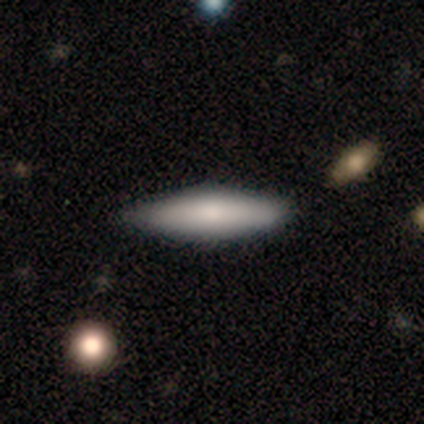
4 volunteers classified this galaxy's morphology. Q: Smooth or featured?
A: smooth (75%); runner-up: star or artifact (25%)
Q: How rounded?
A: in between (67%); runner-up: cigar-shaped (33%)
Q: Merging?
A: none (67%); runner-up: minor disturbance (33%)